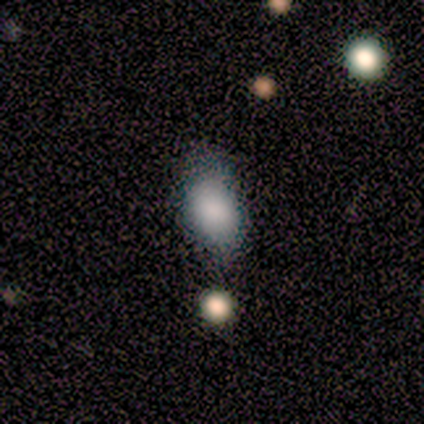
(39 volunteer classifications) Volunteers were most divided on "merging": none: 58%, minor disturbance: 19%, merger: 16%, major disturbance: 6%. More confident: how rounded — in between (75%); smooth or featured — smooth (72%).